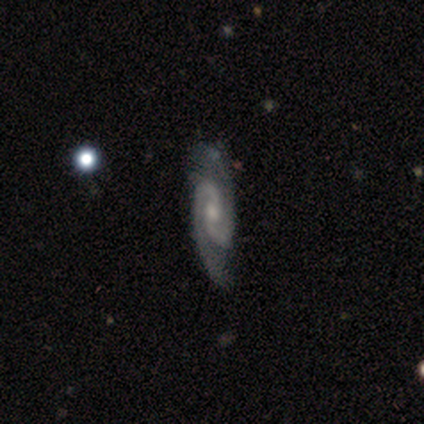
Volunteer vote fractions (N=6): A featured or disk galaxy (67%) with a weak bar (75%), 2 (100%) medium (50%) spiral arms (100%) and a moderate central bulge (50%).

Vote fractions:
- Smooth or featured? featured or disk: 67% / smooth: 17% / star or artifact: 17%
- Edge-on disk? no: 100% / yes: 0%
- Bar? weak: 75% / no: 25% / strong: 0%
- Spiral arms? yes: 100% / no: 0%
- Spiral winding? medium: 50% / tight: 25% / loose: 25%
- Spiral arm count? 2: 100% / 1: 0% / 3: 0% / 4: 0% / more than 4: 0% / can't tell: 0%
- Bulge size? moderate: 50% / small: 25% / none: 25% / dominant: 0% / large: 0%
- Merging? none: 100% / minor disturbance: 0% / major disturbance: 0% / merger: 0%